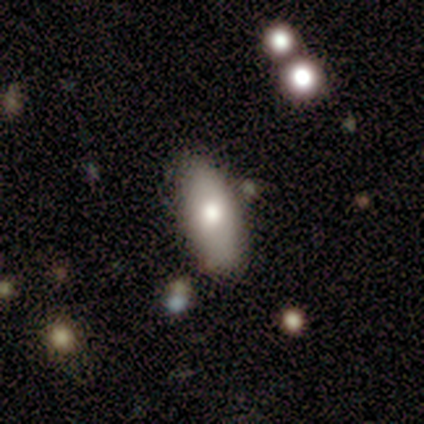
Smooth or featured: smooth — 100%
How rounded: in between — 100%
Merging: none — 100%